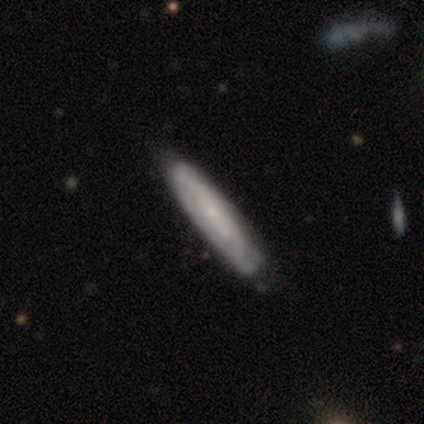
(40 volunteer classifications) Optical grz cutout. It shows a featured or disk galaxy (62%) viewed edge-on (52%) with no central bulge (46%, tied with rounded). Merging: none (80%).